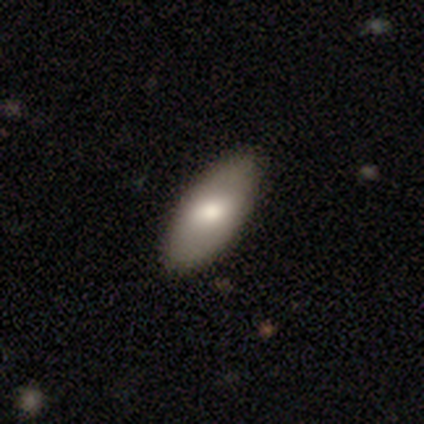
A smooth galaxy with no disk features (78%) that is in between round and cigar-shaped (90%). Merging: none (69%).